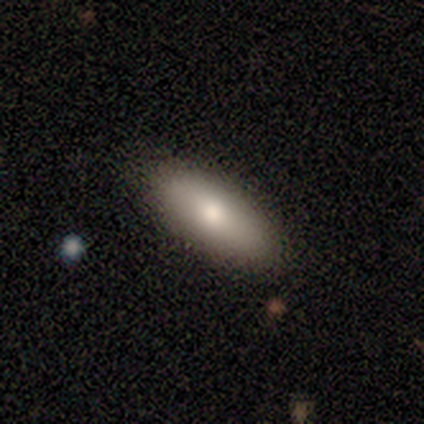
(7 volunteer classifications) smooth 43% (tied), featured or disk 43% (tied), star or artifact 14%. Down the decision tree: how rounded — in between (67%); merging — none (100%).